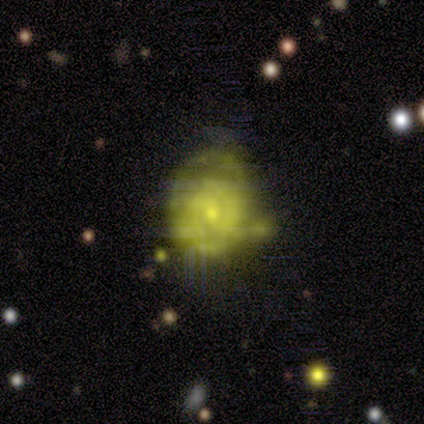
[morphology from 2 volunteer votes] Overall: featured or disk (100%). Edge-on disk: no (100%). Bar: weak (50%, tied with no). Spiral arms: yes (50%, tied with no). Spiral arm count: 2 (100%). Spiral winding: tight (100%). Bulge size: moderate (50%, tied with small). Merging: none (50%, tied with major disturbance).